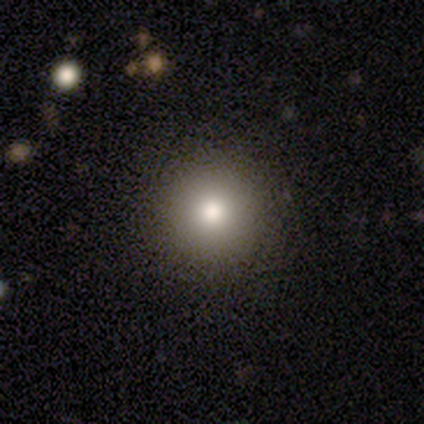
smooth 79%, star or artifact 15%, featured or disk 5%. Down the decision tree: how rounded — round (100%); merging — none (61%).